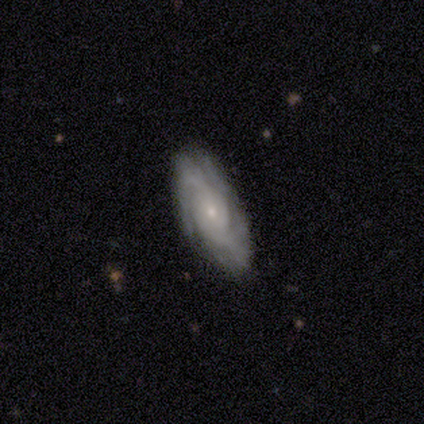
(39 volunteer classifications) Smooth or featured: featured or disk — 90% (star or artifact — 8%)
Edge-on disk: no — 94% (yes — 6%)
Bar: no — 76% (weak — 18%)
Spiral arms: yes — 100%
Spiral winding: tight — 58% (medium — 42%)
Spiral arm count: 2 — 33% (can't tell — 27%)
Bulge size: small — 79% (moderate — 18%)
Merging: none — 81% (minor disturbance — 11%)